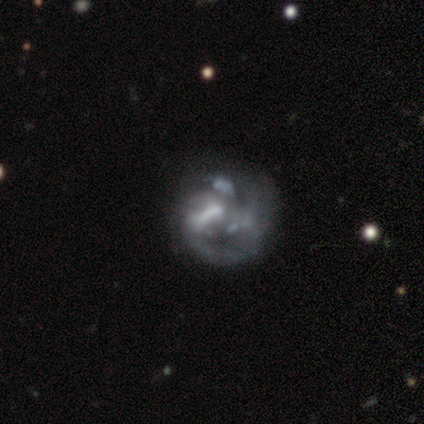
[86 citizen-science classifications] Q: Smooth or featured?
A: featured or disk (80%); runner-up: smooth (12%)
Q: Edge-on disk?
A: no (100%)
Q: Bar?
A: no (51%); runner-up: weak (33%)
Q: Spiral arms?
A: yes (52%); runner-up: no (48%)
Q: Spiral winding?
A: medium (42%); runner-up: tight (33%)
Q: Spiral arm count?
A: can't tell (47%); runner-up: 2 (28%)
Q: Bulge size?
A: none (48%); runner-up: moderate (30%)
Q: Merging?
A: none (39%); runner-up: major disturbance (29%)